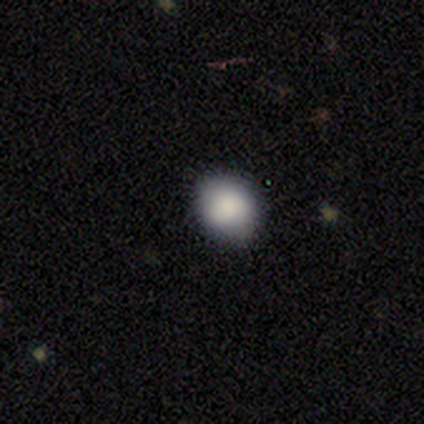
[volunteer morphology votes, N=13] smooth 92%, star or artifact 8%, featured or disk 0%. Down the decision tree: how rounded — in between (67%); merging — none (92%).